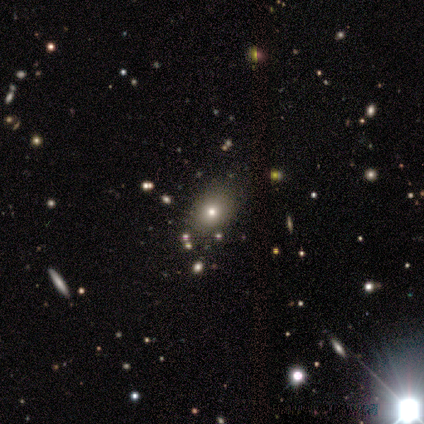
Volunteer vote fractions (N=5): star or artifact 60%, smooth 20%, featured or disk 20%.